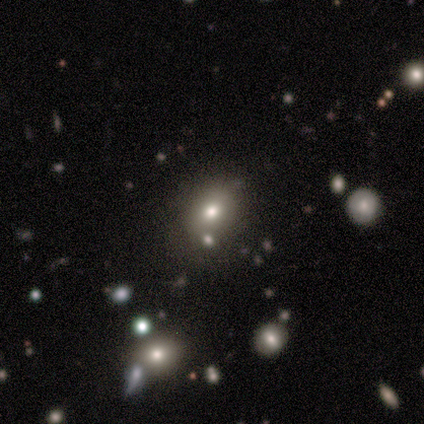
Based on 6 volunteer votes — A smooth galaxy with no disk features (100%) that is in between round and cigar-shaped (83%).

Vote fractions:
- Smooth or featured? smooth: 100% / featured or disk: 0% / star or artifact: 0%
- How rounded? in between: 83% / round: 17% / cigar-shaped: 0%
- Merging? none: 50% (tied) / merger: 50% (tied) / minor disturbance: 0% / major disturbance: 0%